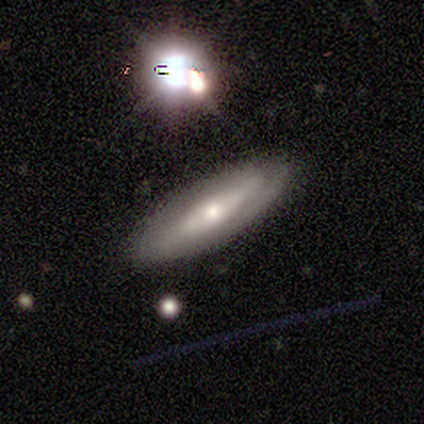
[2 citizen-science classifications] Smooth or featured? 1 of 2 (50%, tied with star or artifact) said featured or disk. Edge-on disk? 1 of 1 (100%) said yes. Edge-on bulge? 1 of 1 (100%) said rounded. Merging? 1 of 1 (100%) said none.